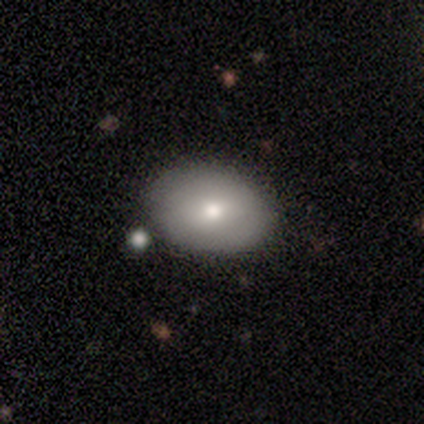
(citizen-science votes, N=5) This appears to be a smooth galaxy with no disk features (100%) that is in between round and cigar-shaped (100%). Merging: none (80%).